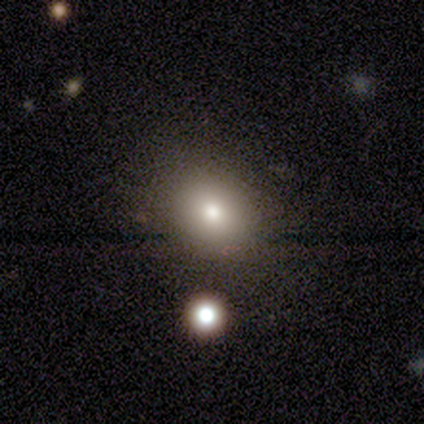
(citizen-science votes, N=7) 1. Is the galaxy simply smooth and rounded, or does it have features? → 86% smooth, 14% star or artifact, 0% featured or disk.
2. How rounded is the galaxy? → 83% round, 17% in between, 0% cigar-shaped.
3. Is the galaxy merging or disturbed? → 83% none, 17% minor disturbance, 0% major disturbance, 0% merger.